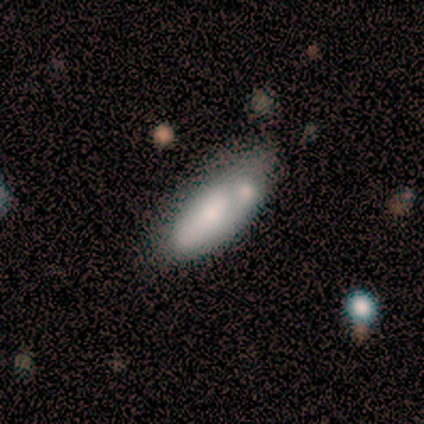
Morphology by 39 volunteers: smooth_or_featured: smooth (p=0.64) [alt: featured or disk p=0.33]
how_rounded: in between (p=0.92) [alt: cigar-shaped p=0.08]
merging: none (p=0.37) [alt: minor disturbance p=0.32]